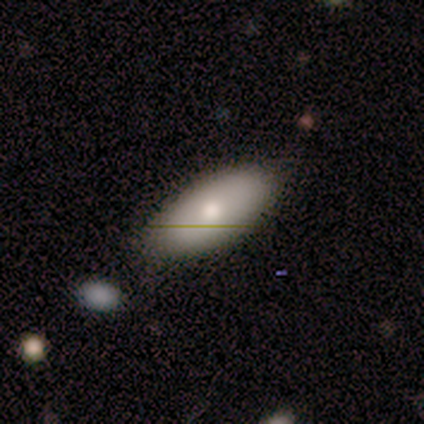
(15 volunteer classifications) Q: Smooth or featured?
A: smooth (73%); runner-up: featured or disk (13%)
Q: How rounded?
A: in between (91%); runner-up: cigar-shaped (9%)
Q: Merging?
A: none (85%); runner-up: minor disturbance (15%)